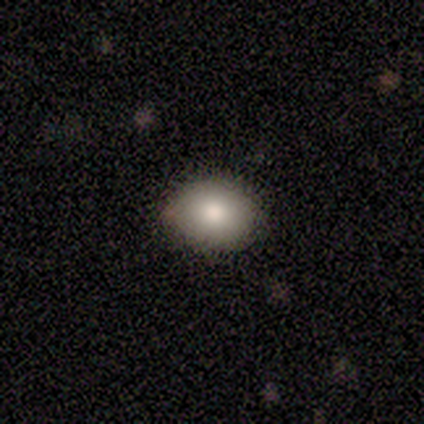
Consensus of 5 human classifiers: Morphology: type=smooth (100%); roundness=in between (60%); merging=none (80%).